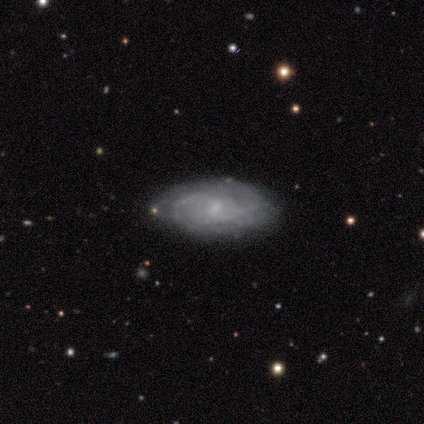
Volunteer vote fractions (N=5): smooth-or-featured: featured or disk: 100% | smooth: 0% | star or artifact: 0%
  disk-edge-on: no: 100% | yes: 0%
    bar: weak: 60% | no: 40% | strong: 0%
    has-spiral-arms: yes: 100% | no: 0%
      spiral-winding: tight: 60% | medium: 40% | loose: 0%
      spiral-arm-count: can't tell: 80% | 2: 20% | 1: 0% | 3: 0% | 4: 0% | more than 4: 0%
    bulge-size: small: 60% | none: 40% | dominant: 0% | large: 0% | moderate: 0%
  merging: none: 100% | minor disturbance: 0% | major disturbance: 0% | merger: 0%